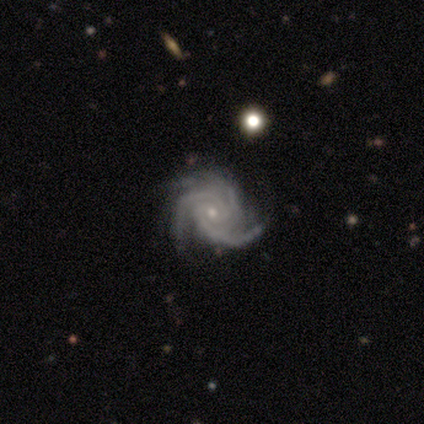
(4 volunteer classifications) smooth-or-featured: featured or disk: 75% | smooth: 25% | star or artifact: 0%
  disk-edge-on: no: 100% | yes: 0%
    bar: no: 100% | strong: 0% | weak: 0%
    has-spiral-arms: yes: 100% | no: 0%
      spiral-winding: tight: 67% | medium: 33% | loose: 0%
      spiral-arm-count: 3: 100% | 1: 0% | 2: 0% | 4: 0% | more than 4: 0% | can't tell: 0%
    bulge-size: moderate: 33% (tied) | small: 33% (tied) | none: 33% (tied) | dominant: 0% | large: 0%
  merging: none: 75% | minor disturbance: 25% | major disturbance: 0% | merger: 0%